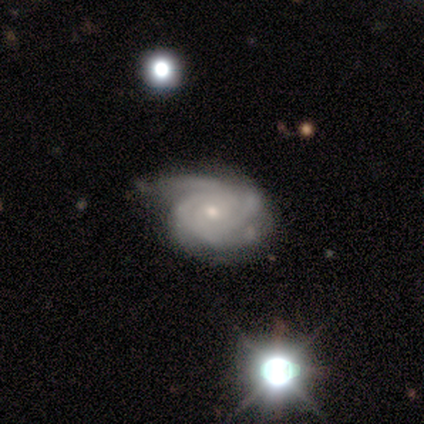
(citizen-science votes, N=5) Q: Smooth or featured?
A: featured or disk (100%)
Q: Edge-on disk?
A: no (80%); runner-up: yes (20%)
Q: Bar?
A: no (100%)
Q: Spiral arms?
A: yes (100%)
Q: Spiral winding?
A: tight (75%); runner-up: medium (25%)
Q: Spiral arm count?
A: 3 (75%); runner-up: 2 (25%)
Q: Bulge size?
A: small (75%); runner-up: moderate (25%)
Q: Merging?
A: minor disturbance (60%); runner-up: none (40%)